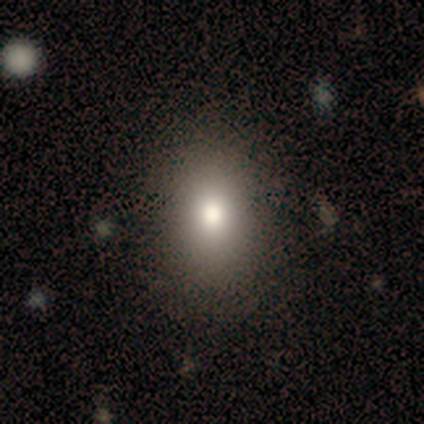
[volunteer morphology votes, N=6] smooth-or-featured: smooth: 83% | star or artifact: 17% | featured or disk: 0%
  how-rounded: round: 60% | in between: 40% | cigar-shaped: 0%
  merging: none: 100% | minor disturbance: 0% | major disturbance: 0% | merger: 0%